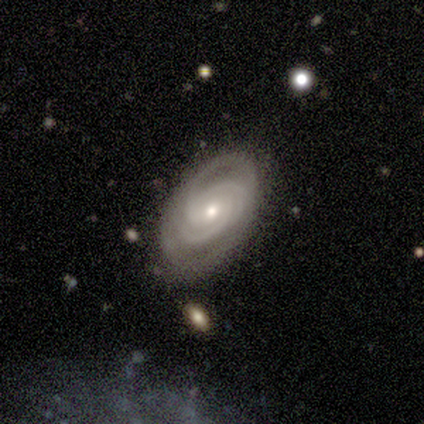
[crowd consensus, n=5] Volunteers were most divided on "bulge size" (2-way tie): moderate: 50%, small: 50%, dominant: 0%, large: 0%, none: 0%. More confident: edge-on disk — no (100%); spiral arms — yes (100%); spiral winding — tight (100%); smooth or featured — featured or disk (80%); merging — none (80%); bar — no (75%); spiral arm count — 3 (75%).